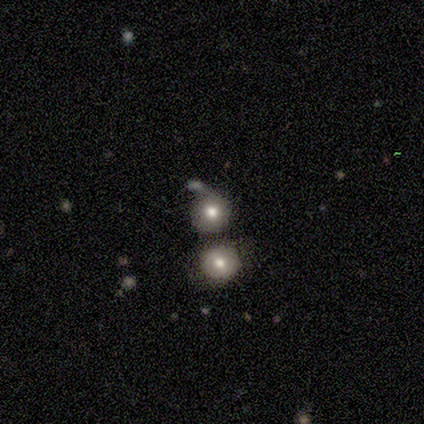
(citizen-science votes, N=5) smooth-or-featured: smooth: 100% | featured or disk: 0% | star or artifact: 0%
  how-rounded: round: 100% | in between: 0% | cigar-shaped: 0%
  merging: none: 40% | minor disturbance: 20% | major disturbance: 20% | merger: 20%